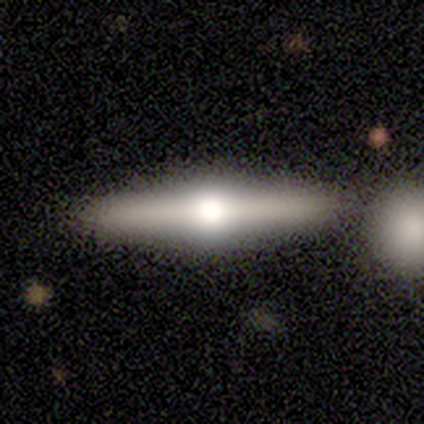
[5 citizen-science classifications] A featured or disk galaxy (60%) viewed edge-on (100%) with a rounded central bulge (100%).

Vote fractions:
- Smooth or featured? featured or disk: 60% / smooth: 40% / star or artifact: 0%
- Edge-on disk? yes: 100% / no: 0%
- Edge-on bulge? rounded: 100% / boxy: 0% / none: 0%
- Merging? none: 60% / merger: 40% / minor disturbance: 0% / major disturbance: 0%